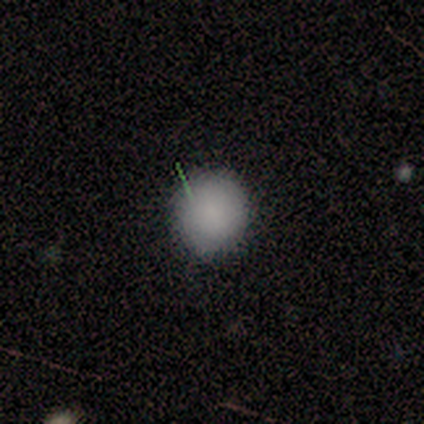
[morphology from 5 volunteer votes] Smooth or featured: smooth — 80% (featured or disk — 20%)
How rounded: round — 100%
Merging: none — 80% (minor disturbance — 20%)